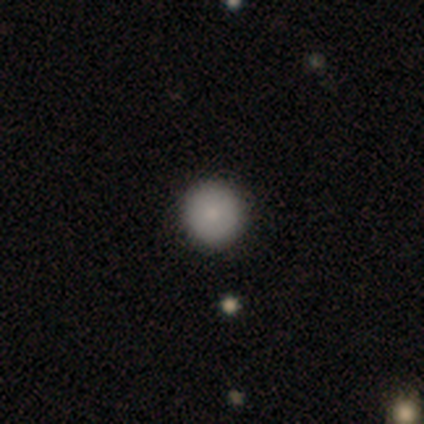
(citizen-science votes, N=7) This is clearly a smooth galaxy (86%). How rounded: clearly round (100%). Merging: clearly none (100%).